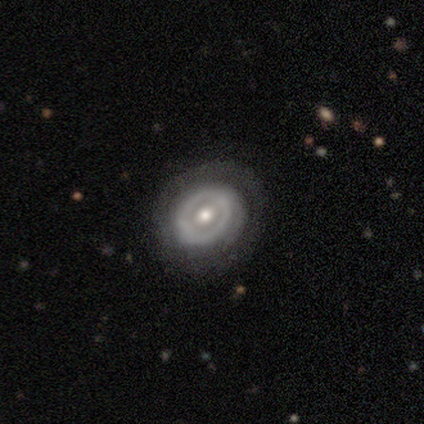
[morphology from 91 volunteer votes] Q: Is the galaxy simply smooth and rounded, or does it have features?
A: featured or disk — 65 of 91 (71%).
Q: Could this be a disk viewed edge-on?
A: no — 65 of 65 (100%).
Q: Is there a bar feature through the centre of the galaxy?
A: no — 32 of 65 (49%).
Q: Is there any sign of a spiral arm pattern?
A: yes — 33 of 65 (51%).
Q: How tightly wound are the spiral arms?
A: tight — 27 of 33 (82%).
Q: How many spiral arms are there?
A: can't tell — 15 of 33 (45%).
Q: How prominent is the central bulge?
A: moderate — 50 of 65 (77%).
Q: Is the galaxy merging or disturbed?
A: none — 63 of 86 (73%).